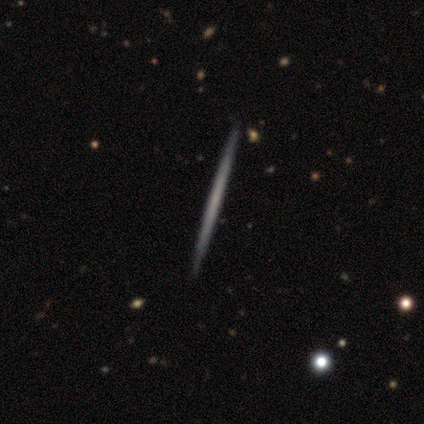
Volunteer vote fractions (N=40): smooth_or_featured: featured or disk (p=0.65) [alt: smooth p=0.35]
disk_edge_on: yes (p=0.96) [alt: no p=0.04]
edge_on_bulge: none (p=0.92) [alt: rounded p=0.08]
merging: none (p=0.72) [alt: merger p=0.05]